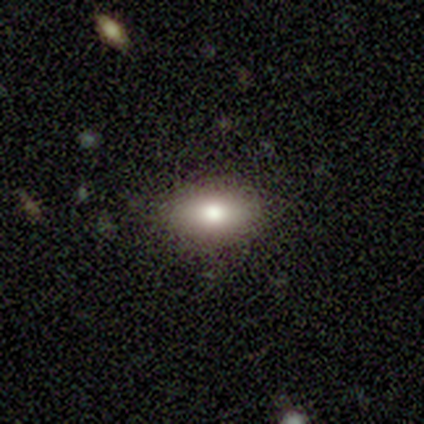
This is clearly a smooth galaxy (80%). How rounded: clearly in between (100%). Merging: clearly none (100%).